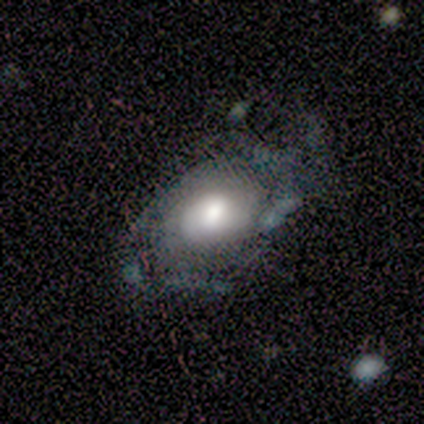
smooth 50% (tied), featured or disk 50% (tied), star or artifact 0%. Down the decision tree: how rounded — in between (100%); merging — major disturbance (50%).